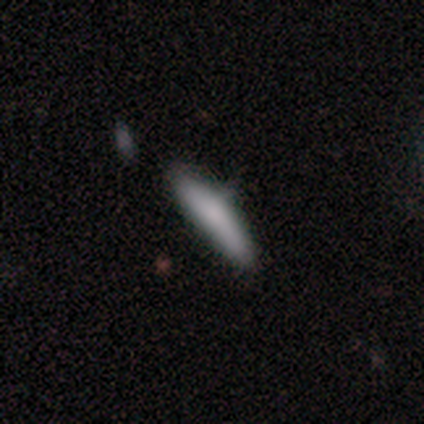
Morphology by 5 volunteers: This appears to be a smooth galaxy with no disk features (80%) that is cigar-shaped (100%). Merging: none (100%).